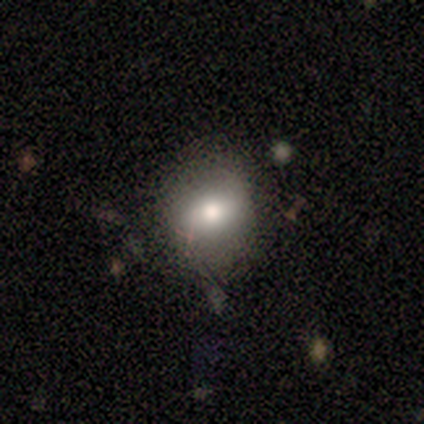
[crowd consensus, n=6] Morphology: type=smooth (67%); roundness=round (75%); merging=none (60%).